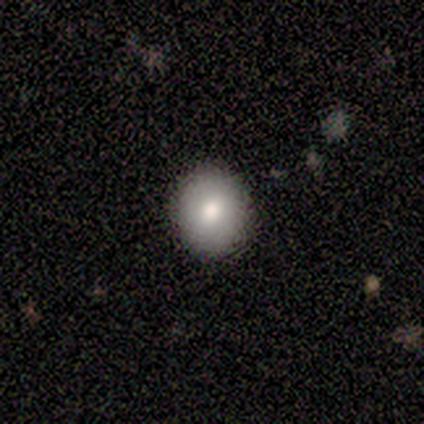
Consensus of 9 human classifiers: Smooth or featured? smooth (78%)
How rounded? round (71%)
Merging? none (88%)